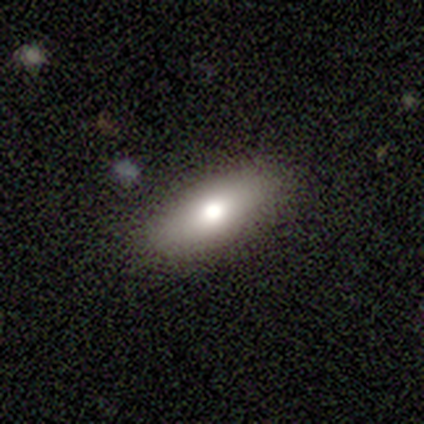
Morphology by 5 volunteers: type=smooth (100%); roundness=in between (100%); merging=none (80%).